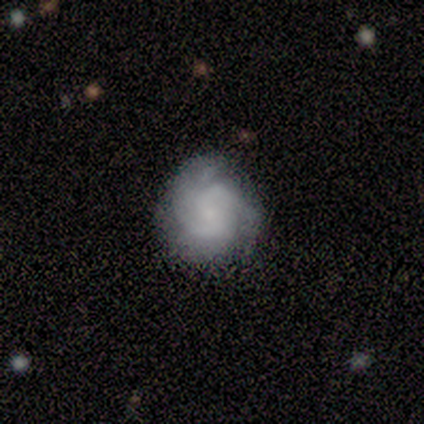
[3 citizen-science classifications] This appears to be a smooth galaxy with no disk features (33%, tied with featured or disk and star or artifact) that is round (100%). Merging: none (50%, tied with minor disturbance).